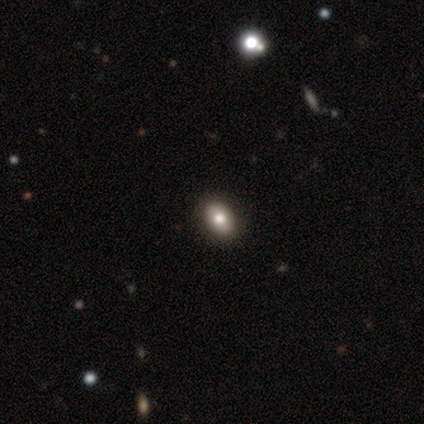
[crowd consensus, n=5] This appears to be a smooth galaxy with no disk features (40%, tied with star or artifact) that is in between round and cigar-shaped (100%). Merging: none (100%).